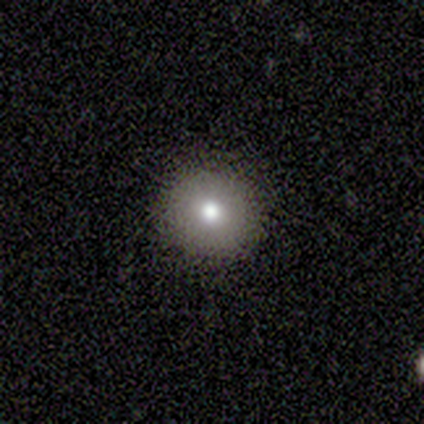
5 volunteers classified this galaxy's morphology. Smooth or featured? smooth (80%)
How rounded? round (100%)
Merging? none (100%)